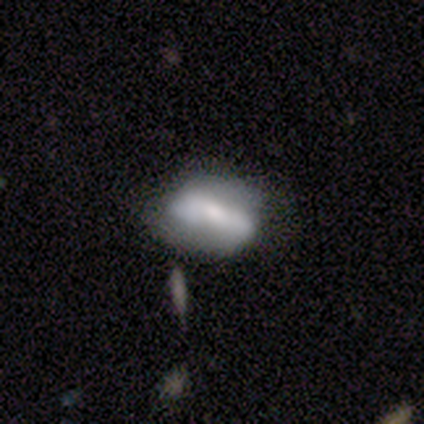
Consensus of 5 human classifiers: A smooth galaxy with no disk features (60%) that is in between round and cigar-shaped (100%).

Vote fractions:
- Smooth or featured? smooth: 60% / featured or disk: 40% / star or artifact: 0%
- How rounded? in between: 100% / round: 0% / cigar-shaped: 0%
- Merging? none: 60% / minor disturbance: 40% / major disturbance: 0% / merger: 0%